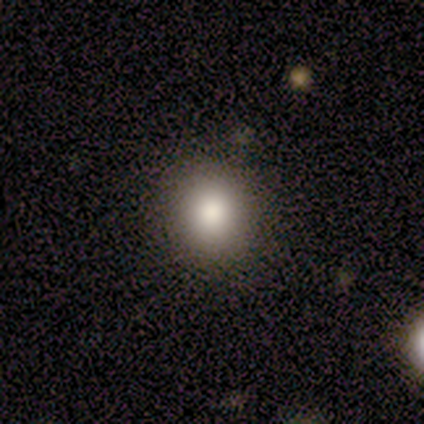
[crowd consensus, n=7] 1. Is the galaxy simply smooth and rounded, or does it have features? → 100% smooth, 0% featured or disk, 0% star or artifact.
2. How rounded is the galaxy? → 71% round, 29% in between, 0% cigar-shaped.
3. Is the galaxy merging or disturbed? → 71% none, 29% minor disturbance, 0% major disturbance, 0% merger.